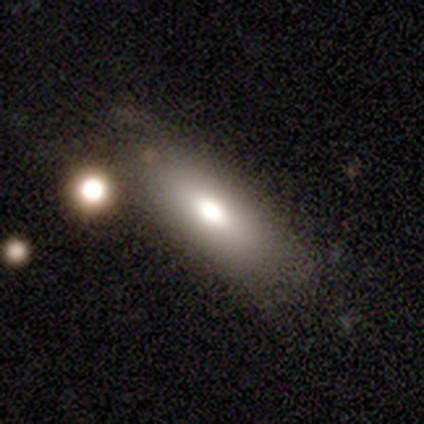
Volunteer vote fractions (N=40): A smooth galaxy with no disk features (65%) that is in between round and cigar-shaped (85%). Merging: none (68%).